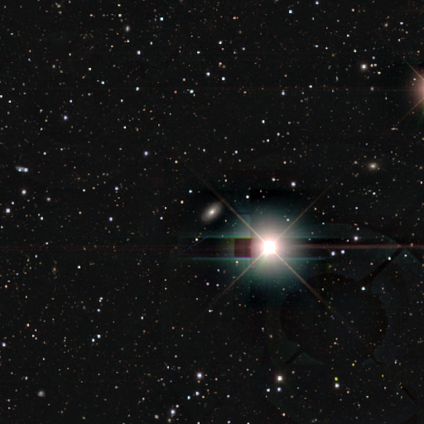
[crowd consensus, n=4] Smooth or featured? star or artifact (50%)